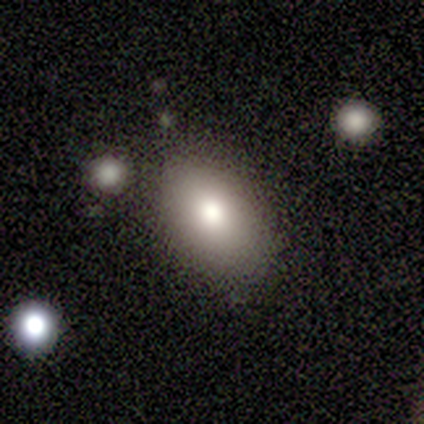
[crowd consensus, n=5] Overall: smooth (80%). How rounded: in between (100%). Merging: none (80%).